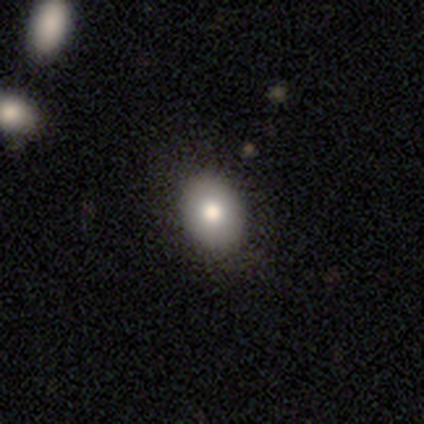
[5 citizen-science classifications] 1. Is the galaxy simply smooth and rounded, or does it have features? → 80% smooth, 20% star or artifact, 0% featured or disk.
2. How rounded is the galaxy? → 75% in between, 25% round, 0% cigar-shaped.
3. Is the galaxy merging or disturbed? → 100% none, 0% minor disturbance, 0% major disturbance, 0% merger.